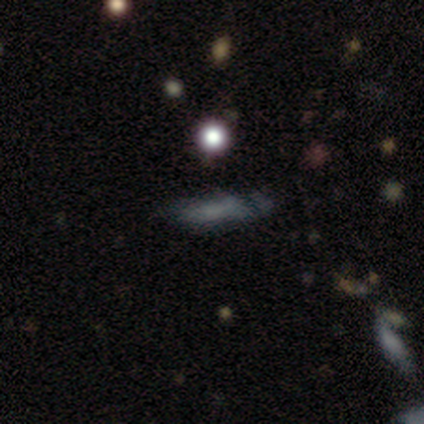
Smooth or featured? 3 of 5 (60%) said smooth. How rounded? 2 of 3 (67%) said in between. Merging? 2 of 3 (67%) said none.